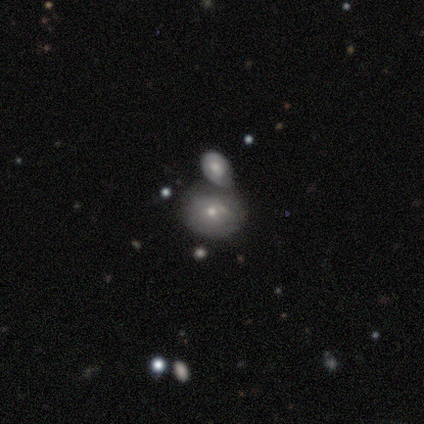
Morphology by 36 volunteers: Q: Smooth or featured?
A: smooth (50%); runner-up: featured or disk (47%)
Q: How rounded?
A: round (56%); runner-up: in between (39%)
Q: Merging?
A: merger (60%); runner-up: none (26%)